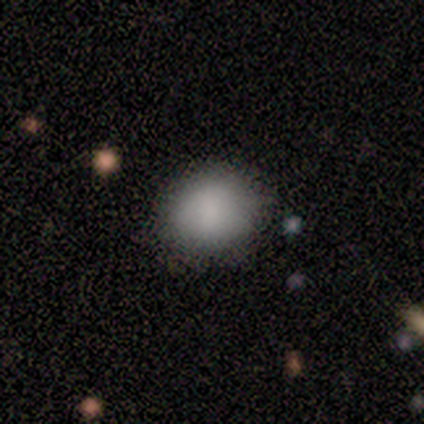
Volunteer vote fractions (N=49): Volunteers were most divided on "how rounded": round: 66%, in between: 34%, cigar-shaped: 0%. More confident: merging — none (84%); smooth or featured — smooth (78%).